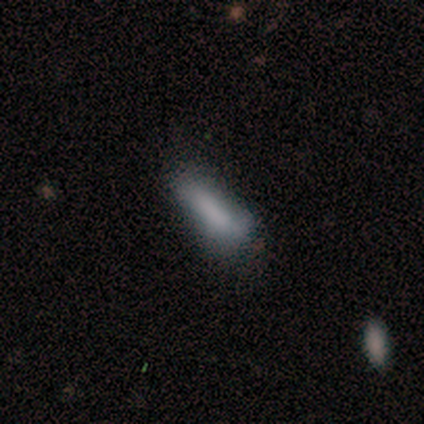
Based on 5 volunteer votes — Q: Smooth or featured?
A: smooth (80%); runner-up: star or artifact (20%)
Q: How rounded?
A: in between (50%); tied with: cigar-shaped (50%)
Q: Merging?
A: none (50%); tied with: minor disturbance (50%)